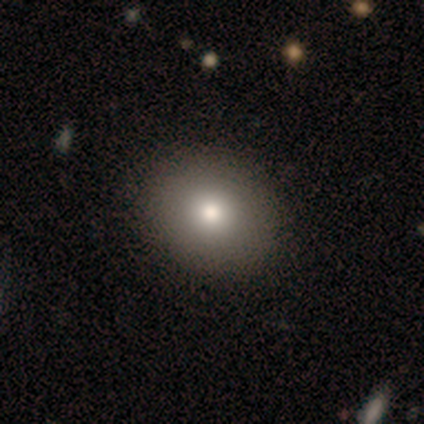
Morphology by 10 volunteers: Volunteers were most divided on "how rounded": round: 78%, in between: 22%, cigar-shaped: 0%. More confident: merging — none (100%); smooth or featured — smooth (90%).